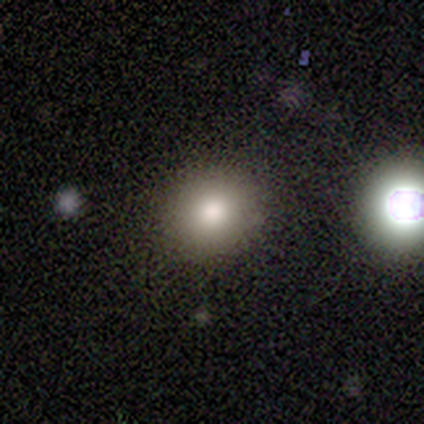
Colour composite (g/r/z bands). It shows a star or artifact, not a galaxy (60%).